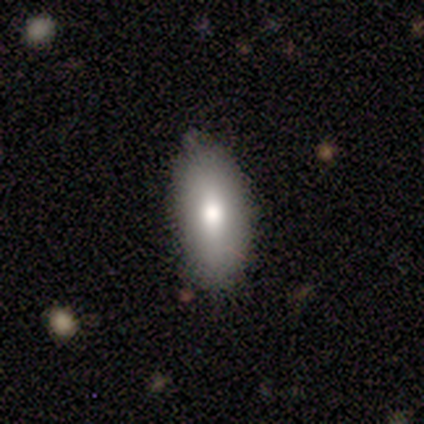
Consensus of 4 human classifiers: Smooth or featured? 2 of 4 (50%, tied with star or artifact) said smooth. How rounded? 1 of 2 (50%, tied with cigar-shaped) said in between. Merging? 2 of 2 (100%) said none.